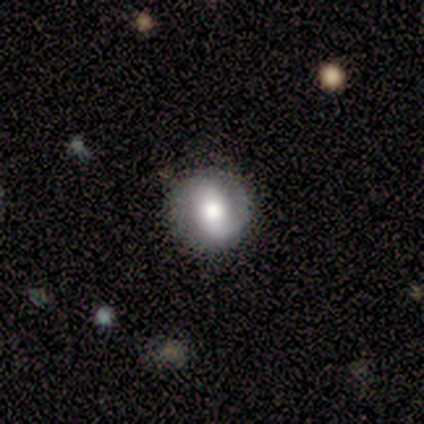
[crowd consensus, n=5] Volunteers were most divided on "smooth or featured": smooth: 60%, featured or disk: 20%, star or artifact: 20%. More confident: how rounded — round (100%); merging — none (100%).